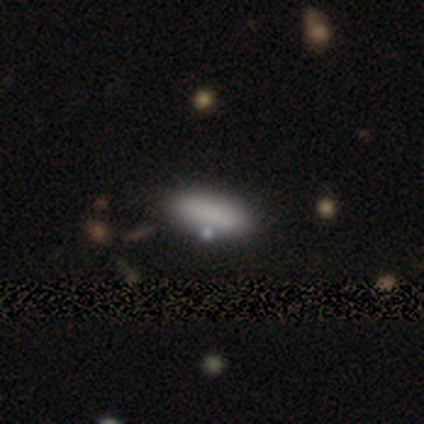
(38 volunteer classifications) Smooth or featured? smooth (87%)
How rounded? in between (79%)
Merging? none (76%)